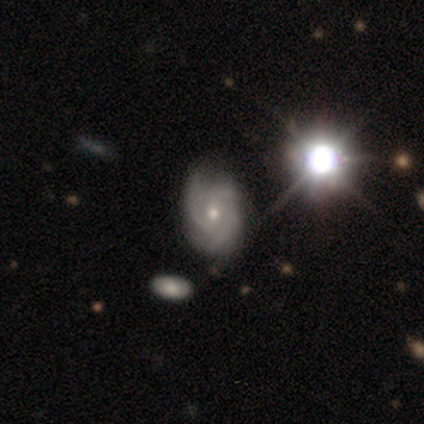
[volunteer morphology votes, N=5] This is clearly a featured or disk galaxy (80%). It is clearly not viewed edge-on (100%). Bar: clearly no (100%). Spiral arm pattern: clearly yes (100%). Spiral arm count: likely 3 (75%). Spiral winding: possibly medium (50%). Central bulge: possibly moderate (50%, tied with small). Merging: clearly none (100%).